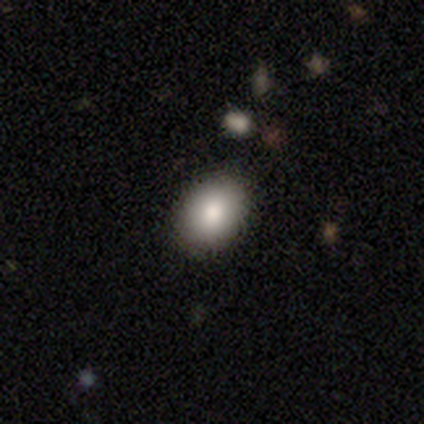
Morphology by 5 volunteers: Smooth or featured? 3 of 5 (60%) said smooth. How rounded? 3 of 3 (100%) said in between. Merging? 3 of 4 (75%) said none.